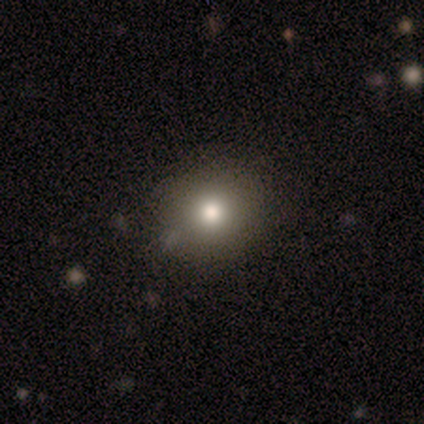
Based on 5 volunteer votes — This appears to be a smooth galaxy with no disk features (80%) that is round (75%). Merging: none (75%).